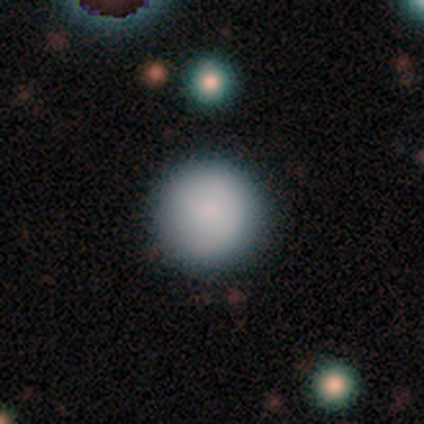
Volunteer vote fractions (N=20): A smooth galaxy with no disk features (85%) that is round (94%).

Vote fractions:
- Smooth or featured? smooth: 85% / featured or disk: 10% / star or artifact: 5%
- How rounded? round: 94% / in between: 6% / cigar-shaped: 0%
- Merging? none: 95% / minor disturbance: 5% / major disturbance: 0% / merger: 0%